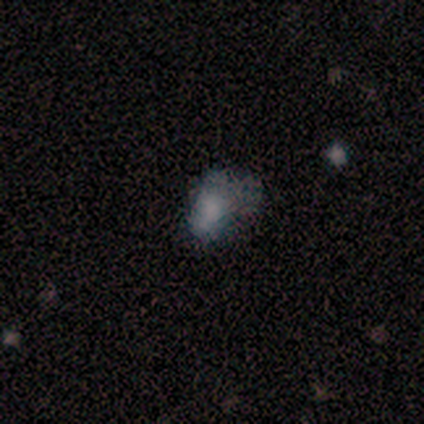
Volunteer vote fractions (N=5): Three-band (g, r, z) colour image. It shows a smooth galaxy with no disk features (60%) that is in between round and cigar-shaped (100%). Merging: major disturbance (60%).